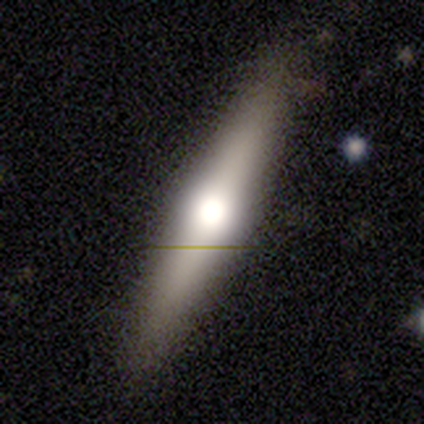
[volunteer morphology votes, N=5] Overall: smooth (80%). How rounded: cigar-shaped (100%). Merging: none (80%).